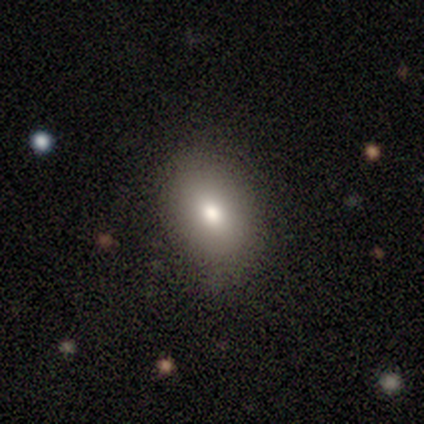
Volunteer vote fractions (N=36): Smooth or featured? smooth (81%)
How rounded? in between (72%)
Merging? none (84%)